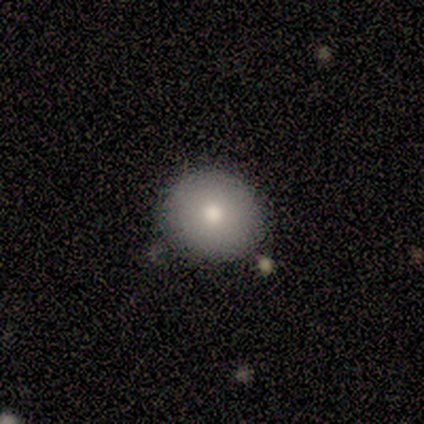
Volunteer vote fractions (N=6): Volunteers were most divided on "how rounded": round: 83%, in between: 17%, cigar-shaped: 0%. More confident: smooth or featured — smooth (100%); merging — none (100%).